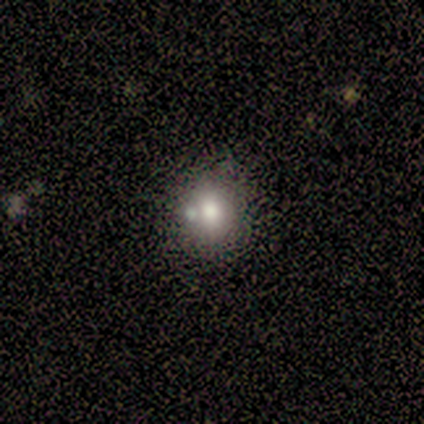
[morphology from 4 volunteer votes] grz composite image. It shows a smooth galaxy with no disk features (100%) that is round (50%, tied with in between). Merging: none (100%).